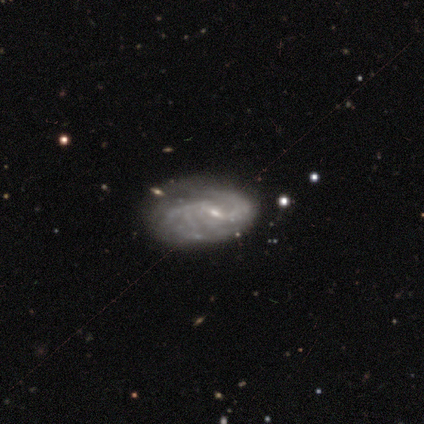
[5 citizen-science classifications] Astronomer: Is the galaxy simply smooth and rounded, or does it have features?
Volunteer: featured or disk — 80%.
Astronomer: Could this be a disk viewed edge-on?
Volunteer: no — 100%.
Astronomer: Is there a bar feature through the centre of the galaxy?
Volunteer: weak — 50%.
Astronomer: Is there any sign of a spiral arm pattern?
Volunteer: yes — 100%.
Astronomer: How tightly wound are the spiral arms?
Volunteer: medium — 50%.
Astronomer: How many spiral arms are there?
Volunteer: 2 — 75%.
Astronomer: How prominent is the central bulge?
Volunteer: small — 50%, tied with none at 50%.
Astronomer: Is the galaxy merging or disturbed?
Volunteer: none — 75%.